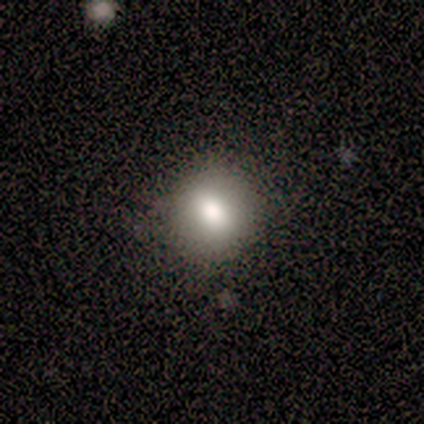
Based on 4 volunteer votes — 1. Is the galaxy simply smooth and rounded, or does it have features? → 100% smooth, 0% featured or disk, 0% star or artifact.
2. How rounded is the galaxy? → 50% round (tied), 50% in between (tied), 0% cigar-shaped.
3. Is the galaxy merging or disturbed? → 75% none, 25% minor disturbance, 0% major disturbance, 0% merger.